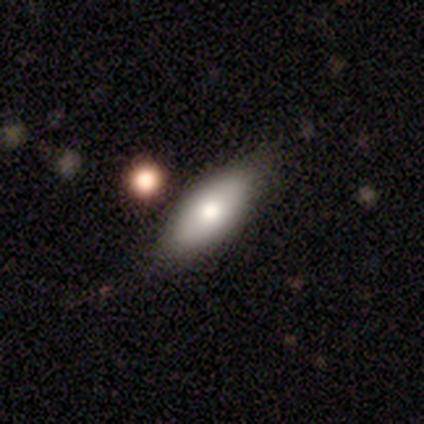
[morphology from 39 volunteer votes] smooth 82%, featured or disk 18%, star or artifact 0%. Down the decision tree: how rounded — in between (84%); merging — none (79%).